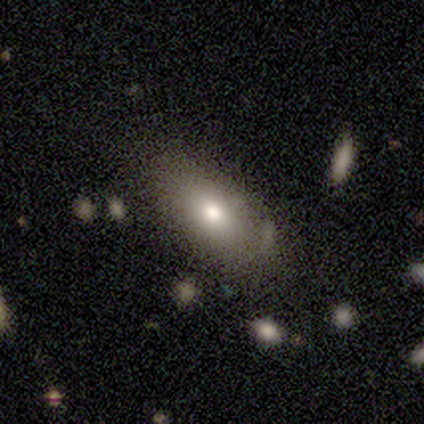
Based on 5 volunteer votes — A smooth galaxy with no disk features (100%) that is in between round and cigar-shaped (100%). Merging: none (80%).